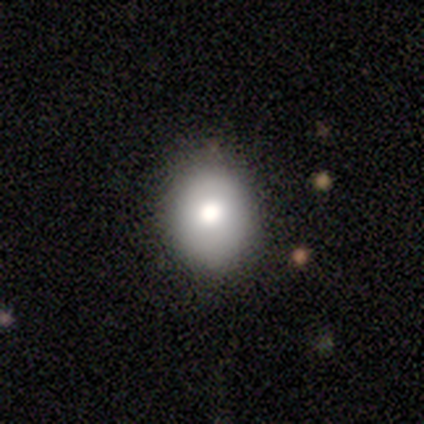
Overall: smooth (56%; featured or disk 22%). How rounded: round (60%; in between 40%). Merging: none (86%).